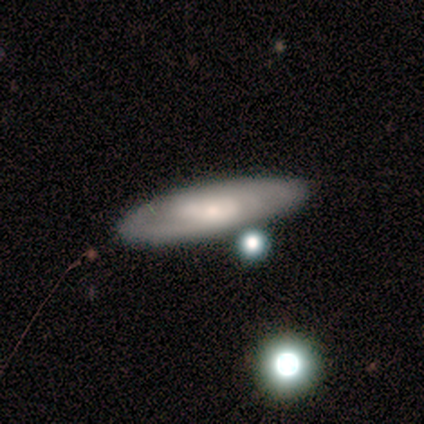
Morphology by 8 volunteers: smooth-or-featured: featured or disk: 62% | smooth: 38% | star or artifact: 0%
  disk-edge-on: no: 80% | yes: 20%
    bar: no: 100% | strong: 0% | weak: 0%
    has-spiral-arms: yes: 50% (tied) | no: 50% (tied)
      spiral-winding: tight: 100% | medium: 0% | loose: 0%
      spiral-arm-count: can't tell: 100% | 1: 0% | 2: 0% | 3: 0% | 4: 0% | more than 4: 0%
    bulge-size: small: 75% | none: 25% | dominant: 0% | large: 0% | moderate: 0%
  merging: none: 88% | minor disturbance: 12% | major disturbance: 0% | merger: 0%